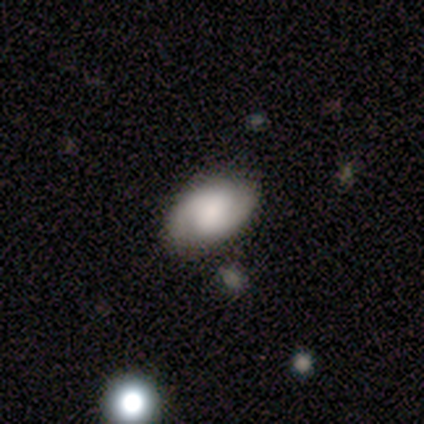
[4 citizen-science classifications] This is likely a featured or disk galaxy (75%). It is clearly not viewed edge-on (100%). Bar: likely weak (67%). Spiral arm pattern: clearly yes (100%). Spiral arm count: clearly 2 (100%). Spiral winding: likely medium (67%). Central bulge: marginally large (33%, tied with moderate and none). Merging: clearly none (100%).